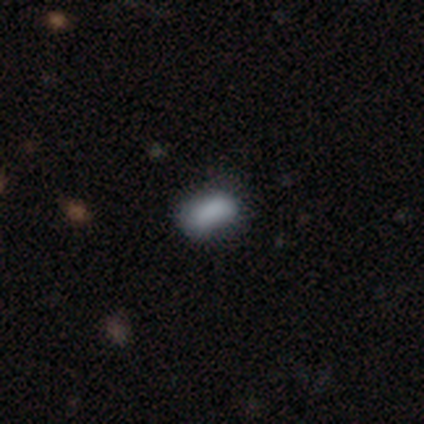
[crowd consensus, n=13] Smooth or featured?
  - smooth: 92% *
  - star or artifact: 8%
  - featured or disk: 0%
How rounded?
  - in between: 83% *
  - cigar-shaped: 17%
  - round: 0%
Merging?
  - none: 67% *
  - minor disturbance: 25%
  - major disturbance: 8%
  - merger: 0%